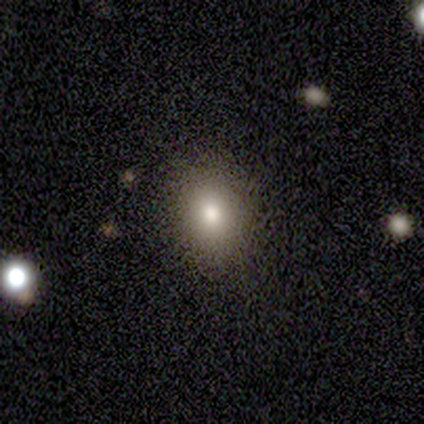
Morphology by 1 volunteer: This is clearly a smooth galaxy (100%). How rounded: clearly in between (100%). Merging: clearly minor disturbance (100%).